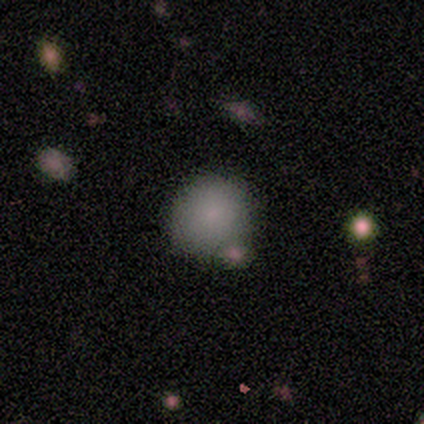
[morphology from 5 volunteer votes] smooth-or-featured: smooth: 100% | featured or disk: 0% | star or artifact: 0%
  how-rounded: round: 80% | in between: 20% | cigar-shaped: 0%
  merging: none: 40% (tied) | merger: 40% (tied) | minor disturbance: 20% | major disturbance: 0%